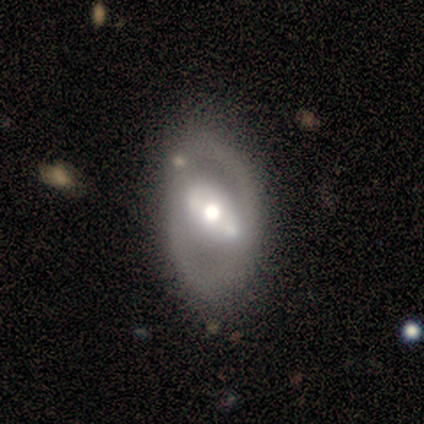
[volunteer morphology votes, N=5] A featured or disk galaxy (80%) with a strong bar (33%, tied with weak and no), 2 (100%) tight (50%, tied with medium) spiral arms (67%) and a moderate central bulge (67%). Merging: none (100%).